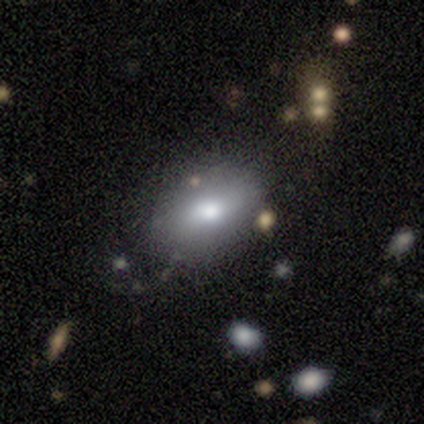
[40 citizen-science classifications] Smooth or featured: smooth — 75% (featured or disk — 18%)
How rounded: in between — 87% (round — 10%)
Merging: none — 59% (minor disturbance — 27%)